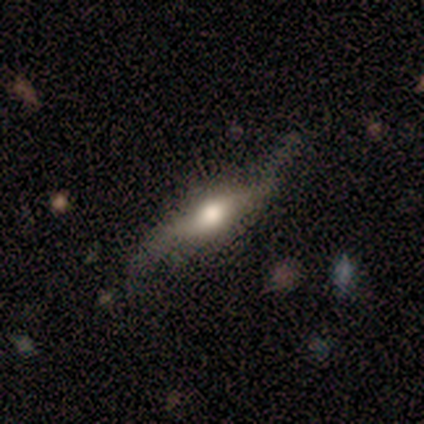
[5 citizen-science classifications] smooth_or_featured: featured or disk (p=0.60) [alt: smooth p=0.40]
disk_edge_on: no (p=0.67) [alt: yes p=0.33]
bar: weak (p=0.50) [tied with: no p=0.50]
has_spiral_arms: yes (p=0.50) [tied with: no p=0.50]
spiral_winding: tight (p=1.00)
spiral_arm_count: can't tell (p=1.00)
bulge_size: moderate (p=1.00)
merging: none (p=0.40) [tied with: minor disturbance p=0.40]